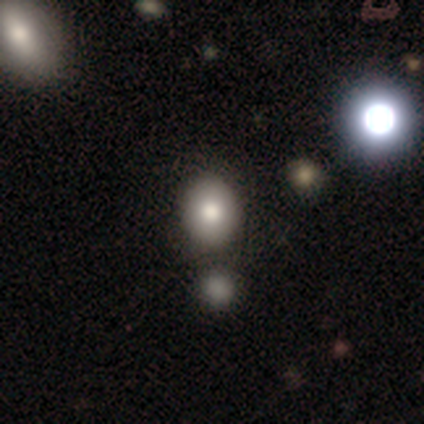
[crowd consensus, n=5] Morphology: type=smooth (80%); roundness=in between (100%); merging=none (100%).